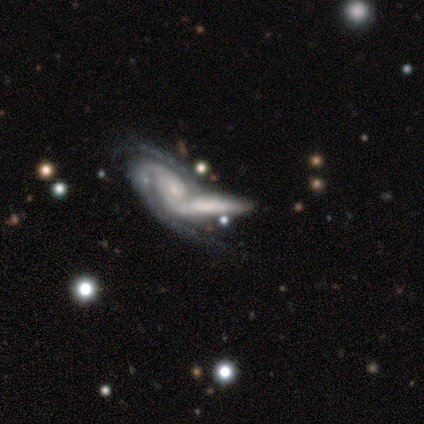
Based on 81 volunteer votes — A featured or disk galaxy (81%) with no bar (75%), 2 (55%) tight (64%) spiral arms (92%) and a small central bulge (60%).

Vote fractions:
- Smooth or featured? featured or disk: 81% / smooth: 14% / star or artifact: 5%
- Edge-on disk? no: 73% / yes: 27%
- Bar? no: 75% / weak: 21% / strong: 4%
- Spiral arms? yes: 92% / no: 8%
- Spiral winding? tight: 64% / medium: 34% / loose: 2%
- Spiral arm count? 2: 55% / can't tell: 23% / 3: 16% / 4: 5% / 1: 2% / more than 4: 0%
- Bulge size? small: 60% / moderate: 19% / none: 15% / large: 6% / dominant: 0%
- Merging? merger: 65% / none: 21% / minor disturbance: 8% / major disturbance: 6%